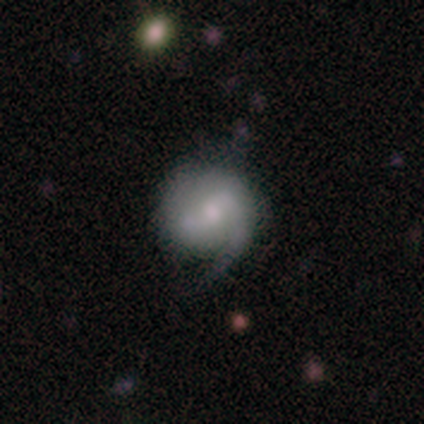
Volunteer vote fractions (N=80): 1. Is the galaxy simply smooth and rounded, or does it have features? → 60% featured or disk, 36% smooth, 4% star or artifact.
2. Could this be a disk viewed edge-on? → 96% no, 4% yes.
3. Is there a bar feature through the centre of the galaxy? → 57% weak, 30% no, 13% strong.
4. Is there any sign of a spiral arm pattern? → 89% yes, 11% no.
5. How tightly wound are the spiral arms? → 46% medium, 39% loose, 15% tight.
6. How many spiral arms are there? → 54% 2, 34% 1, 12% can't tell, 0% 3, 0% 4, 0% more than 4.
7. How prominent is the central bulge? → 59% moderate, 28% small, 7% large, 7% none, 0% dominant.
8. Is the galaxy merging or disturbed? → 25% minor disturbance, 22% none, 4% major disturbance, 0% merger.